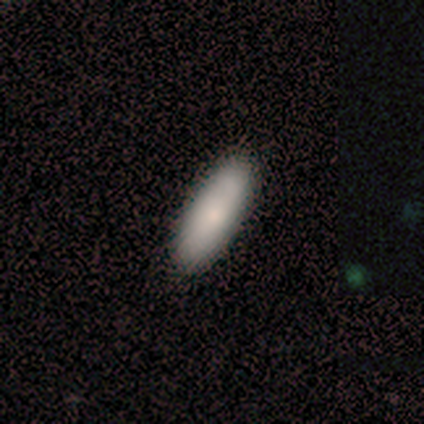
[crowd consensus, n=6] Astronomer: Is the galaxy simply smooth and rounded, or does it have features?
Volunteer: smooth — 100%.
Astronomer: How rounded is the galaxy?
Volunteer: cigar-shaped — 67%.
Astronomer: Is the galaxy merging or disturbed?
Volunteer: none — 100%.